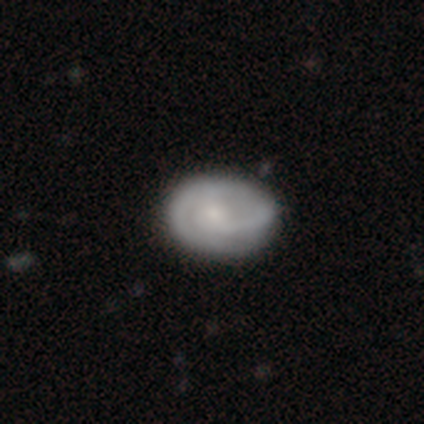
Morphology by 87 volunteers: type=featured or disk (59%); edge-on=no (96%); bar=no (63%); spiral arms=yes (84%); winding=tight (54%); arm count=2 (59%); bulge=small (59%); merging=none (67%).